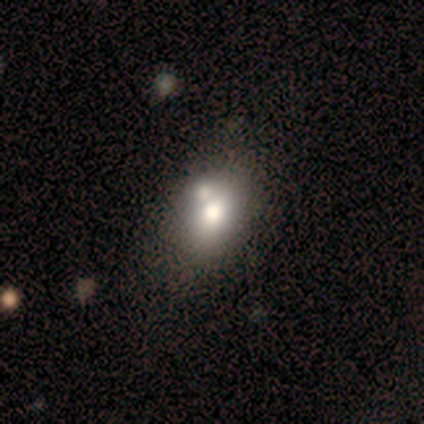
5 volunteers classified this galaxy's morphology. Smooth or featured?
  - smooth: 60% *
  - featured or disk: 20%
  - star or artifact: 20%
How rounded?
  - in between: 67% *
  - cigar-shaped: 33%
  - round: 0%
Merging?
  - none: 50% *
  - major disturbance: 25%
  - merger: 25%
  - minor disturbance: 0%